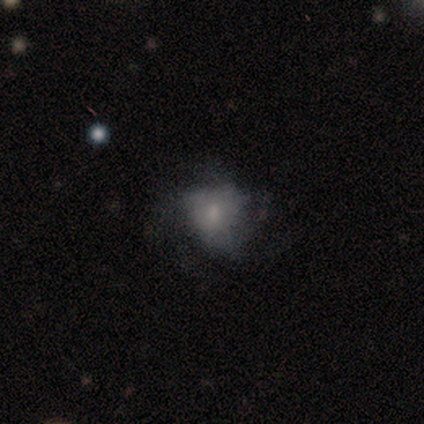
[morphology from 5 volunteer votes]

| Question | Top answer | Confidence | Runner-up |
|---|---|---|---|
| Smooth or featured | smooth | 60% | featured or disk (20%) |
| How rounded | round | 100% | — |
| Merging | none | 75% | major disturbance (25%) |